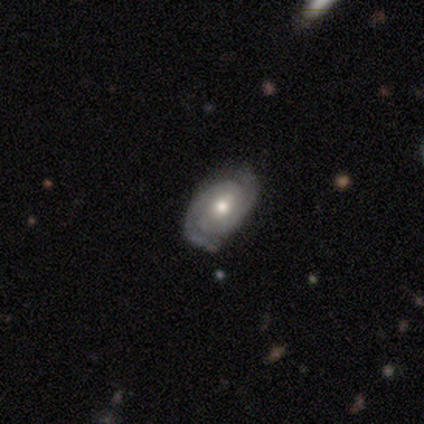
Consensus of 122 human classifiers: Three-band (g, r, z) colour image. It shows a featured or disk galaxy (84%) with no bar (49%), 2 (88%) tight (76%) spiral arms (95%) and a moderate central bulge (87%). Merging: none (76%).